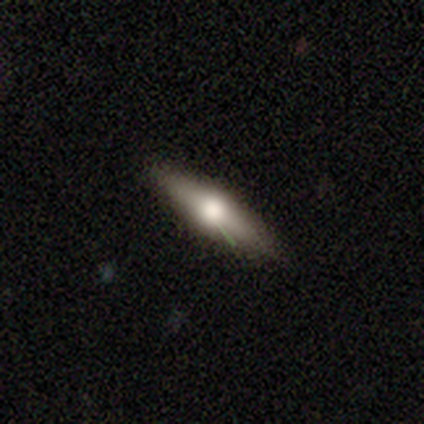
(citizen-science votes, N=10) A featured or disk galaxy (70%) viewed edge-on (86%) with a rounded central bulge (100%).

Vote fractions:
- Smooth or featured? featured or disk: 70% / smooth: 20% / star or artifact: 10%
- Edge-on disk? yes: 86% / no: 14%
- Edge-on bulge? rounded: 100% / boxy: 0% / none: 0%
- Merging? none: 89% / minor disturbance: 11% / major disturbance: 0% / merger: 0%